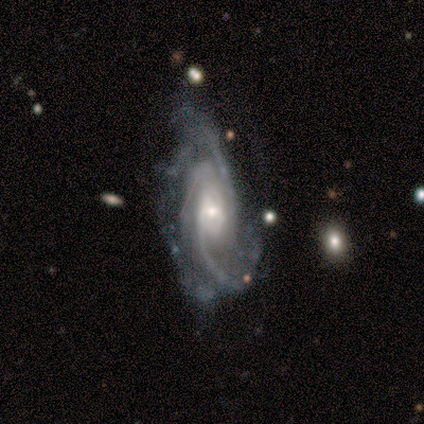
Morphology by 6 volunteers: smooth_or_featured: featured or disk (p=0.83) [alt: star or artifact p=0.17]
disk_edge_on: no (p=1.00)
bar: no (p=0.80) [alt: weak p=0.20]
has_spiral_arms: yes (p=1.00)
spiral_winding: tight (p=0.40) [tied with: loose p=0.40]
spiral_arm_count: 3 (p=0.40) [tied with: 4 p=0.40]
bulge_size: small (p=0.60) [alt: moderate p=0.40]
merging: none (p=0.40) [tied with: major disturbance p=0.40]